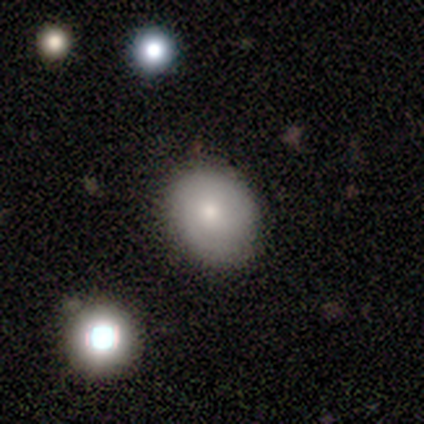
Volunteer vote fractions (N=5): A smooth galaxy with no disk features (80%) that is in between round and cigar-shaped (100%). Merging: none (60%).